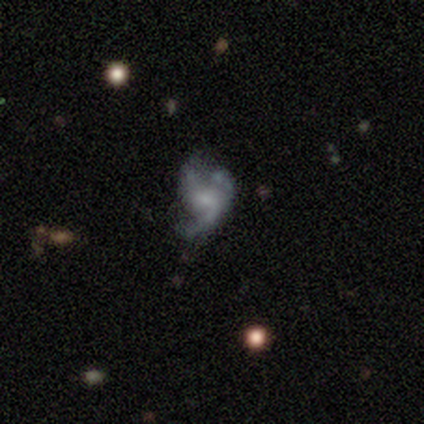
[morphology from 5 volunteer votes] smooth-or-featured: featured or disk: 100% | smooth: 0% | star or artifact: 0%
  disk-edge-on: no: 100% | yes: 0%
    bar: weak: 80% | no: 20% | strong: 0%
    has-spiral-arms: yes: 80% | no: 20%
      spiral-winding: loose: 75% | medium: 25% | tight: 0%
      spiral-arm-count: can't tell: 50% | 2: 25% | 3: 25% | 1: 0% | 4: 0% | more than 4: 0%
    bulge-size: small: 40% (tied) | none: 40% (tied) | moderate: 20% | dominant: 0% | large: 0%
  merging: none: 40% (tied) | minor disturbance: 40% (tied) | major disturbance: 20% | merger: 0%